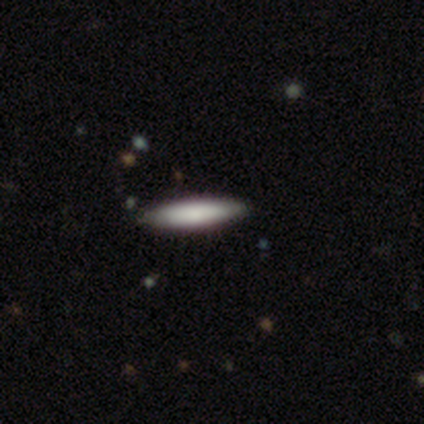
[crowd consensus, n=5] smooth-or-featured: smooth: 100% | featured or disk: 0% | star or artifact: 0%
  how-rounded: cigar-shaped: 100% | round: 0% | in between: 0%
  merging: none: 80% | minor disturbance: 20% | major disturbance: 0% | merger: 0%